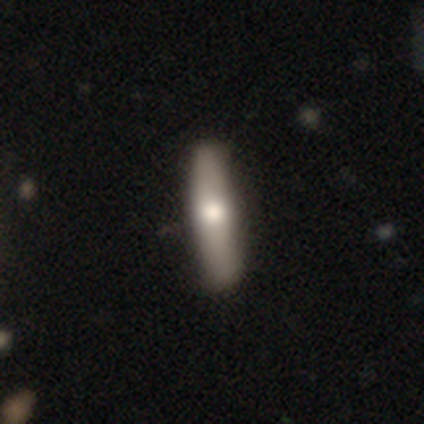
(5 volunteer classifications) Smooth or featured: featured or disk — 60% (smooth — 40%)
Edge-on disk: yes — 100%
Edge-on bulge: rounded — 100%
Merging: none — 80% (minor disturbance — 20%)